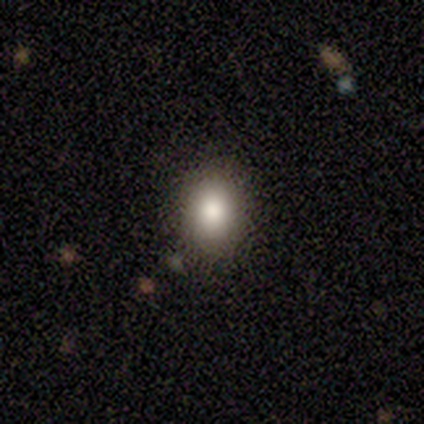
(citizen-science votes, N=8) This is clearly a smooth galaxy (88%). How rounded: possibly in between (57%). Merging: clearly none (100%).